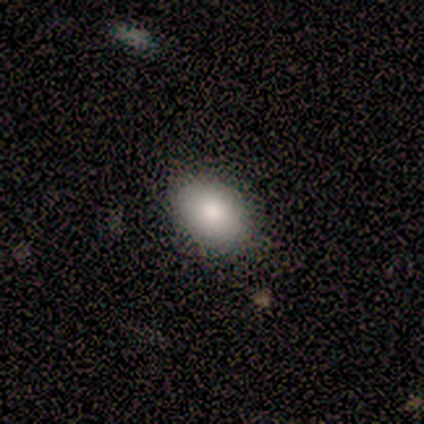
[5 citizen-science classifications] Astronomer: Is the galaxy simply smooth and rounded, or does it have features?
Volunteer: smooth — 80%.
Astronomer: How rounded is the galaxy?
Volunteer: in between — 100%.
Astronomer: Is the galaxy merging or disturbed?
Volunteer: none — 100%.